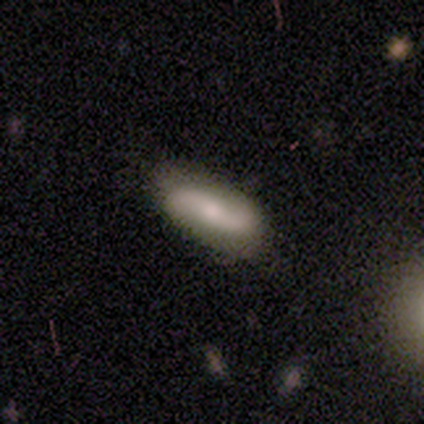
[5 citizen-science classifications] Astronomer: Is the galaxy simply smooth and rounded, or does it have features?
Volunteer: smooth — 60% (runner-up: featured or disk, 40%).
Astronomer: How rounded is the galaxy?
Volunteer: in between — 67%.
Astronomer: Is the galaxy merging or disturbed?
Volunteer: none — 80%.